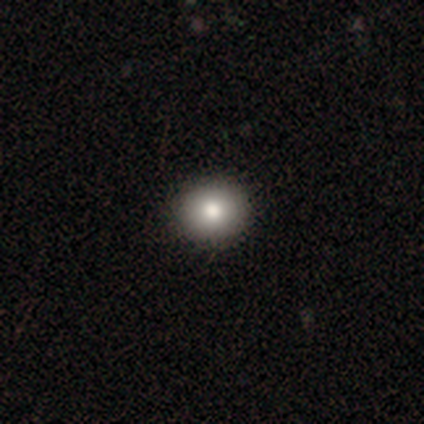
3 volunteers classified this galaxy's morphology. Overall: star or artifact (67%; featured or disk 33%).